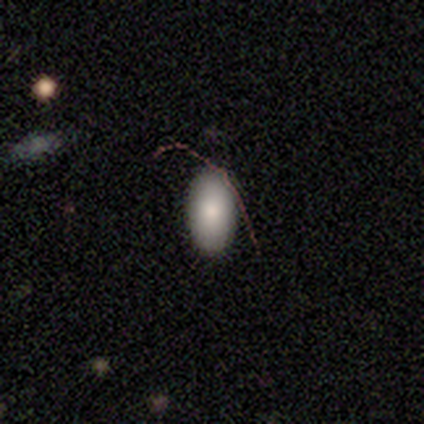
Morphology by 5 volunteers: This appears to be a smooth galaxy with no disk features (80%) that is in between round and cigar-shaped (100%). Merging: none (100%).